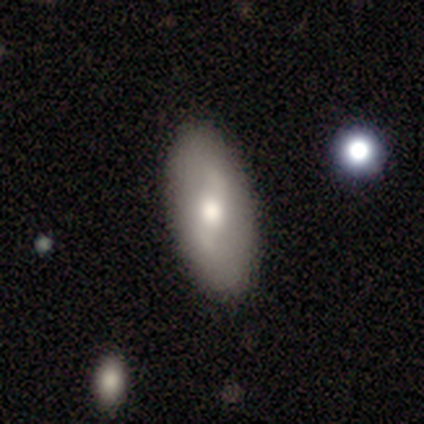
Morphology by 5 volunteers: type=featured or disk (60%); edge-on=no (100%); bar=strong (33%, tied with weak and no); spiral arms=yes (67%); winding=loose (100%); arm count=2 (100%); bulge=moderate (100%); merging=none (100%).